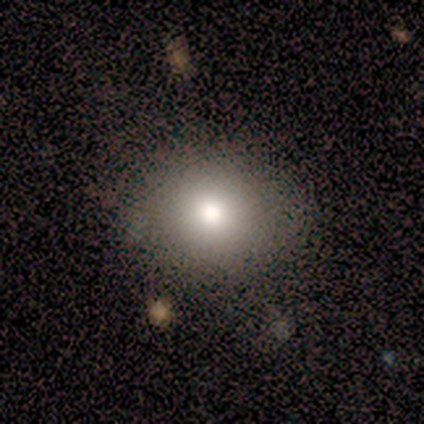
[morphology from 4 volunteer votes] smooth-or-featured: smooth: 100% | featured or disk: 0% | star or artifact: 0%
  how-rounded: round: 100% | in between: 0% | cigar-shaped: 0%
  merging: none: 100% | minor disturbance: 0% | major disturbance: 0% | merger: 0%